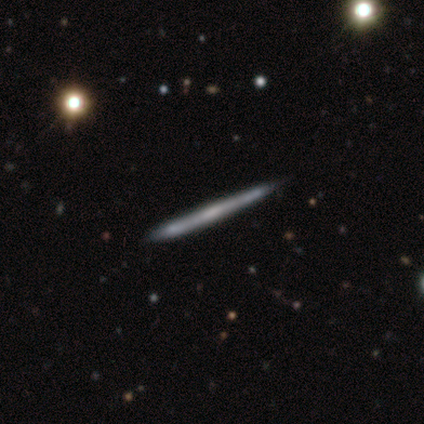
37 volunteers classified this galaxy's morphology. Smooth or featured? 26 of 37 (70%) said featured or disk. Edge-on disk? 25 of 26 (96%) said yes. Edge-on bulge? 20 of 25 (80%) said none. Merging? 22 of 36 (61%) said none.